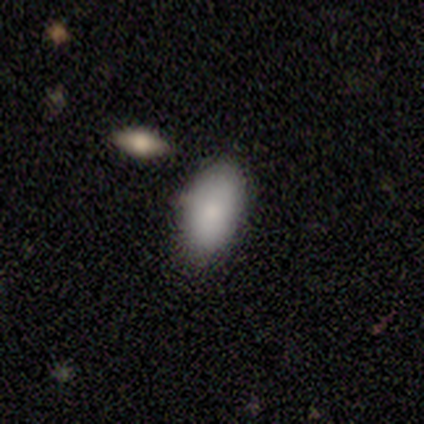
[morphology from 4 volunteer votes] Smooth or featured? 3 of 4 (75%) said smooth. How rounded? 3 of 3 (100%) said in between. Merging? 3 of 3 (100%) said none.